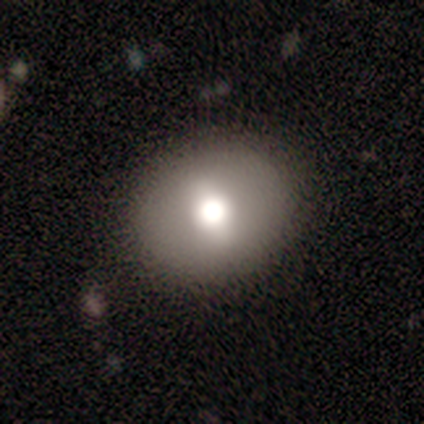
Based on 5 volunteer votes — Smooth or featured? smooth (80%)
How rounded? round (100%)
Merging? none (100%)